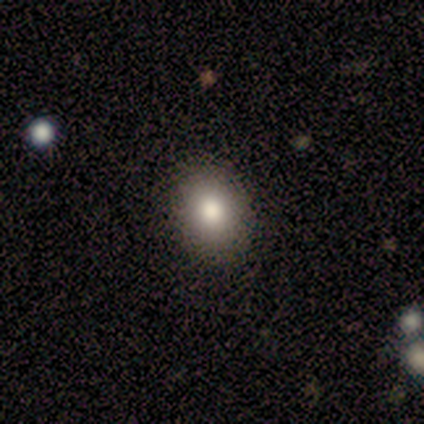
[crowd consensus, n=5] Smooth or featured: smooth — 80% (star or artifact — 20%)
How rounded: in between — 75% (round — 25%)
Merging: none — 75% (minor disturbance — 25%)